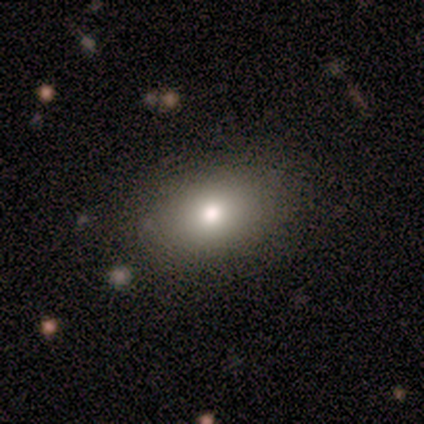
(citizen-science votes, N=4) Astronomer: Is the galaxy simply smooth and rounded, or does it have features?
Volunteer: featured or disk — 50%.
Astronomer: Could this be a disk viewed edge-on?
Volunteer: yes — 50%, tied with no at 50%.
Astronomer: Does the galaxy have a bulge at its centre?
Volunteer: rounded — 100%.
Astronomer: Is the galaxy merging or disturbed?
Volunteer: none — 100%.